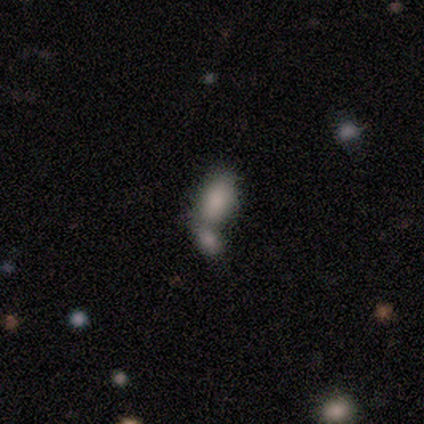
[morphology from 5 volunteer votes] This appears to be a smooth galaxy with no disk features (80%) that is in between round and cigar-shaped (100%). Merging: merger (80%).